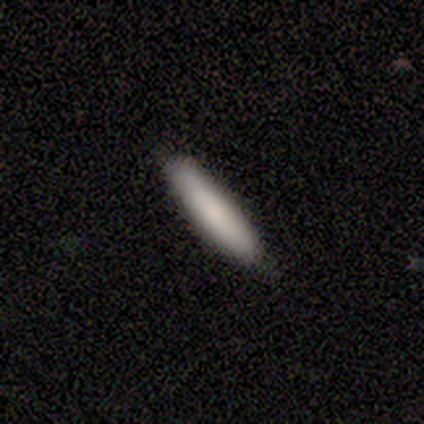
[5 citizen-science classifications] Morphology: type=smooth (80%); roundness=cigar-shaped (100%); merging=none (100%).